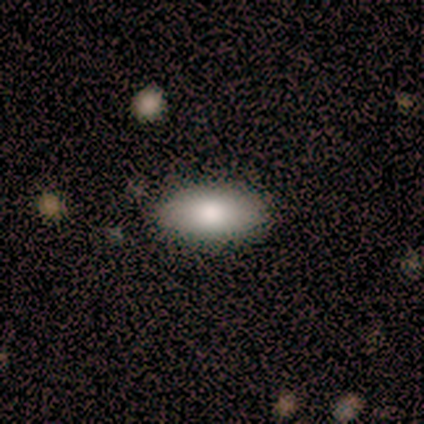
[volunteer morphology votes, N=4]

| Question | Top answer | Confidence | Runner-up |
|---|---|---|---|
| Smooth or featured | smooth | 75% | featured or disk (25%) |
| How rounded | in between | 100% | — |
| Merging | none | 75% | minor disturbance (25%) |